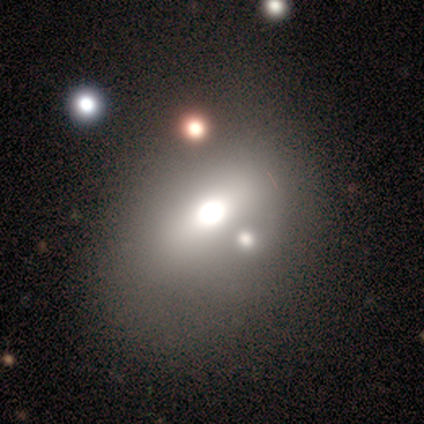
A smooth galaxy with no disk features (50%) that is in between round and cigar-shaped (60%).

Vote fractions:
- Smooth or featured? smooth: 50% / featured or disk: 28% / star or artifact: 22%
- How rounded? in between: 60% / round: 40% / cigar-shaped: 0%
- Merging? none: 45% / merger: 26% / minor disturbance: 23% / major disturbance: 6%